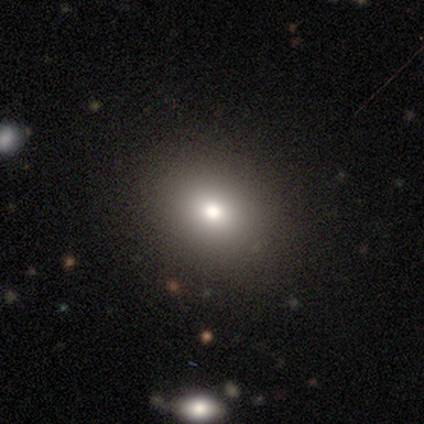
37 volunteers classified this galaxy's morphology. This appears to be a smooth galaxy with no disk features (73%) that is round (52%). Merging: none (91%).